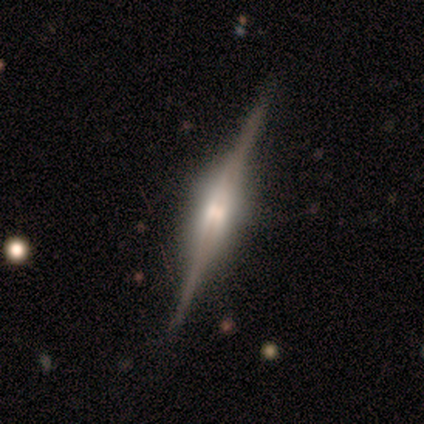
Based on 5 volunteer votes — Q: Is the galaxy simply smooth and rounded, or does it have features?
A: featured or disk — 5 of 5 (100%).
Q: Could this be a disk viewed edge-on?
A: yes — 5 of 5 (100%).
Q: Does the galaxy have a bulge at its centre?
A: rounded — 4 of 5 (80%).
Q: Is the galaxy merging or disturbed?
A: none — 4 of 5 (80%).